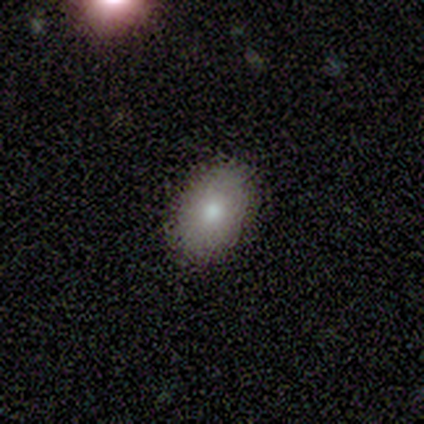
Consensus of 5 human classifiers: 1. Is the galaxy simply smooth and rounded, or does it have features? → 80% smooth, 20% star or artifact, 0% featured or disk.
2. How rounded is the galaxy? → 100% in between, 0% round, 0% cigar-shaped.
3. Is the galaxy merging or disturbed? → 100% none, 0% minor disturbance, 0% major disturbance, 0% merger.